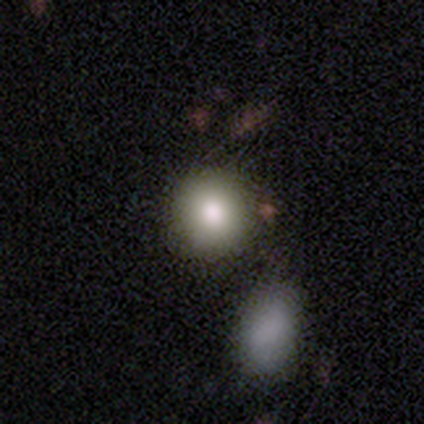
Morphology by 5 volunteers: This appears to be a smooth galaxy with no disk features (80%) that is round (75%). Merging: none (100%).